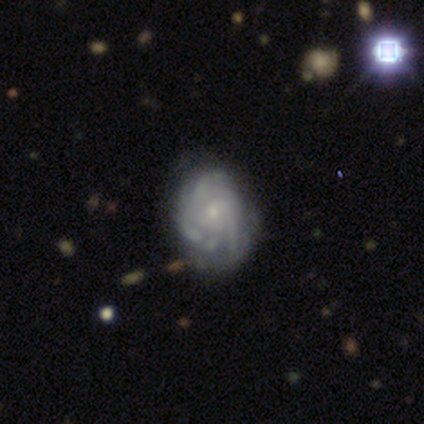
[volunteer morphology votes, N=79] Smooth or featured? featured or disk (84%)
Edge-on disk? no (100%)
Bar? no (89%)
Spiral arms? yes (97%)
Spiral winding? tight (62%)
Spiral arm count? 3 (44%)
Bulge size? small (79%)
Merging? none (35%)